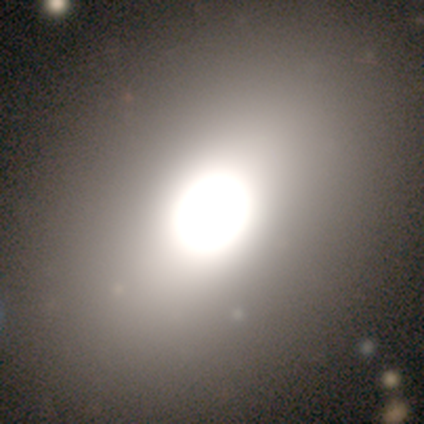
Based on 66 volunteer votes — smooth_or_featured: smooth (p=0.64) [alt: featured or disk p=0.18]
how_rounded: in between (p=0.79) [alt: round p=0.21]
merging: none (p=0.85) [alt: minor disturbance p=0.09]